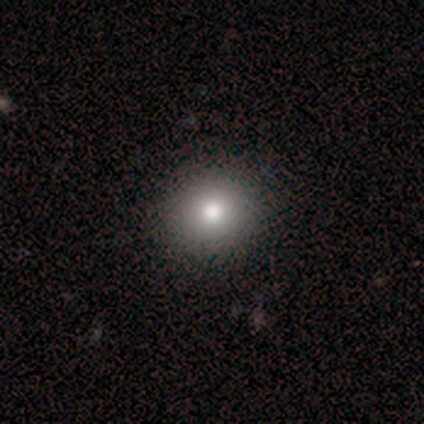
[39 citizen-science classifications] smooth-or-featured: smooth: 82% | star or artifact: 10% | featured or disk: 8%
  how-rounded: round: 88% | in between: 12% | cigar-shaped: 0%
  merging: none: 66% | minor disturbance: 6% | major disturbance: 0% | merger: 0%